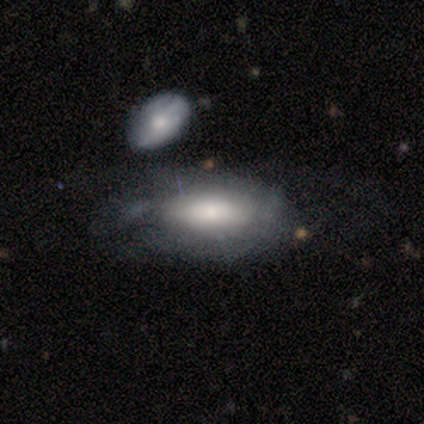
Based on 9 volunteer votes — Q: Smooth or featured?
A: featured or disk (44%); runner-up: smooth (33%)
Q: Edge-on disk?
A: no (100%)
Q: Bar?
A: no (100%)
Q: Spiral arms?
A: yes (50%); tied with: no (50%)
Q: Spiral winding?
A: tight (50%); tied with: loose (50%)
Q: Spiral arm count?
A: can't tell (100%)
Q: Bulge size?
A: moderate (50%); tied with: small (50%)
Q: Merging?
A: major disturbance (43%); runner-up: none (29%)